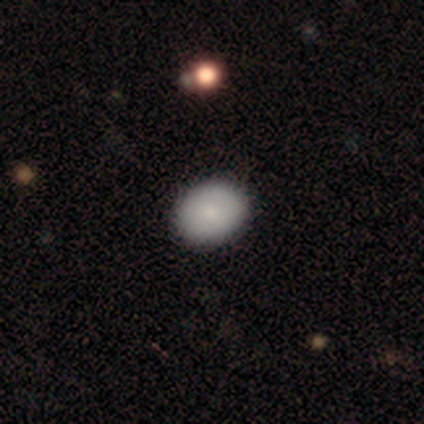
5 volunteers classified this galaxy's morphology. smooth-or-featured: smooth: 60% | featured or disk: 20% | star or artifact: 20%
  how-rounded: in between: 100% | round: 0% | cigar-shaped: 0%
  merging: none: 100% | minor disturbance: 0% | major disturbance: 0% | merger: 0%